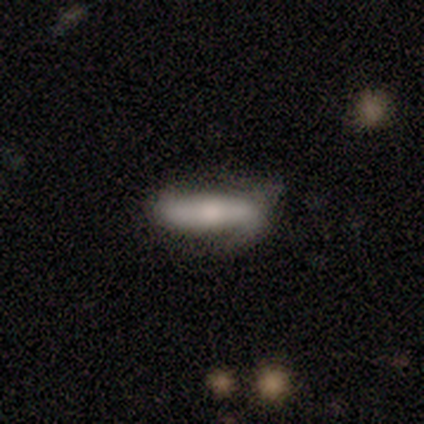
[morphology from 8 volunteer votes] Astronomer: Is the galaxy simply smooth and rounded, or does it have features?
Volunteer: featured or disk — 50% (runner-up: smooth, 38%).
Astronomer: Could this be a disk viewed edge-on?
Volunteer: no — 75%.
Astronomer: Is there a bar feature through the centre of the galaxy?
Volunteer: strong — 33%, tied with weak and no at 33%.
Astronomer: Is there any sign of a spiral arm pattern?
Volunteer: yes — 67%.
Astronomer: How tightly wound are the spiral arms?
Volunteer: loose — 100%.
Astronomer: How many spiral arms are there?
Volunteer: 2 — 100%.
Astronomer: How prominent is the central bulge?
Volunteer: small — 67%.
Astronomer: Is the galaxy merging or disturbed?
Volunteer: none — 71%.